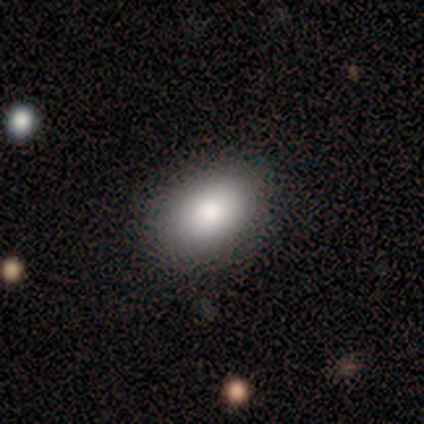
Morphology: type=smooth (100%); roundness=in between (100%); merging=none (100%).